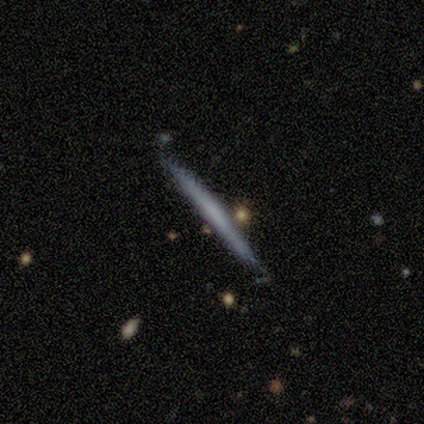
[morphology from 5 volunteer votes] This appears to be a smooth galaxy with no disk features (80%) that is cigar-shaped (100%). Merging: none (100%).